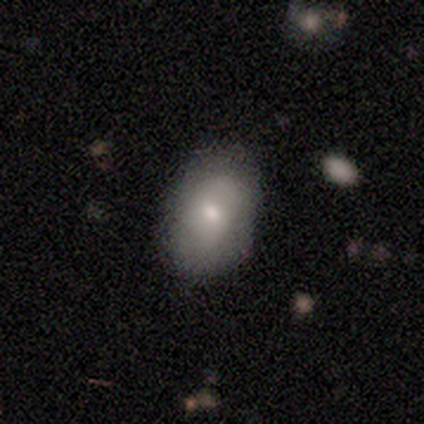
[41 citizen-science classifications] A smooth galaxy with no disk features (59%) that is in between round and cigar-shaped (96%).

Vote fractions:
- Smooth or featured? smooth: 59% / featured or disk: 37% / star or artifact: 5%
- How rounded? in between: 96% / round: 4% / cigar-shaped: 0%
- Merging? none: 74% / minor disturbance: 23% / major disturbance: 3% / merger: 0%